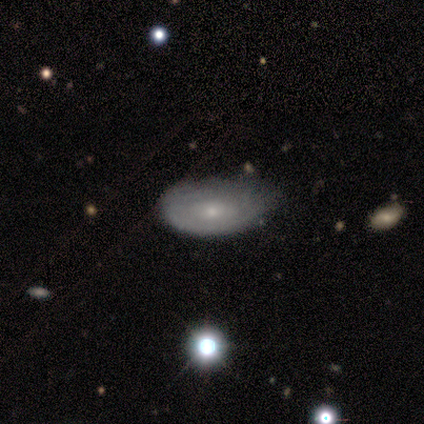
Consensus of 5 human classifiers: This appears to be a featured or disk galaxy (60%) with no bar (100%), tight (100%) spiral arms (67%) and a small central bulge (67%). Merging: none (60%).